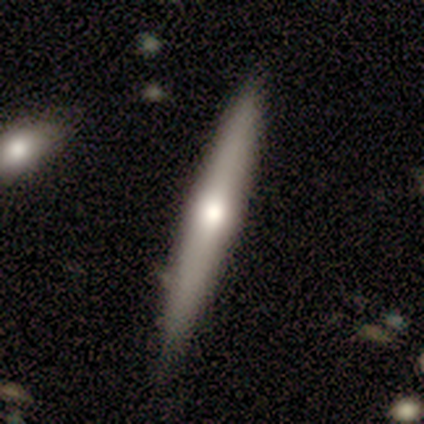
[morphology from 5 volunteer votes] This appears to be a featured or disk galaxy (80%) viewed edge-on (100%) with a rounded central bulge (75%). Merging: none (100%).